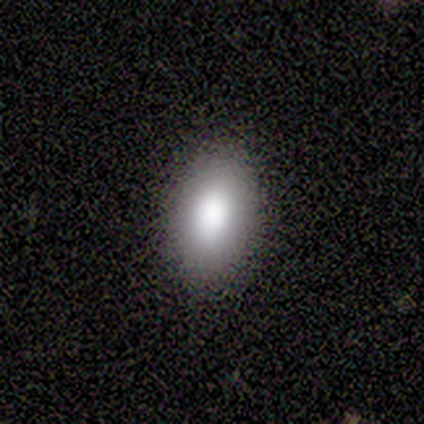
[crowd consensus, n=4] smooth-or-featured: smooth: 100% | featured or disk: 0% | star or artifact: 0%
  how-rounded: in between: 75% | round: 25% | cigar-shaped: 0%
  merging: none: 100% | minor disturbance: 0% | major disturbance: 0% | merger: 0%